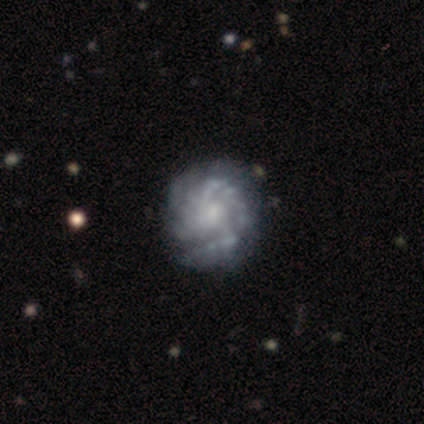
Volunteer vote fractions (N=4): Smooth or featured? 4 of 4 (100%) said featured or disk. Edge-on disk? 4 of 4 (100%) said no. Bar? 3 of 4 (75%) said no. Spiral arms? 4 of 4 (100%) said yes. Spiral winding? 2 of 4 (50%, tied with medium) said tight. Spiral arm count? 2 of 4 (50%) said 2. Bulge size? 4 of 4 (100%) said small. Merging? 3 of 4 (75%) said none.